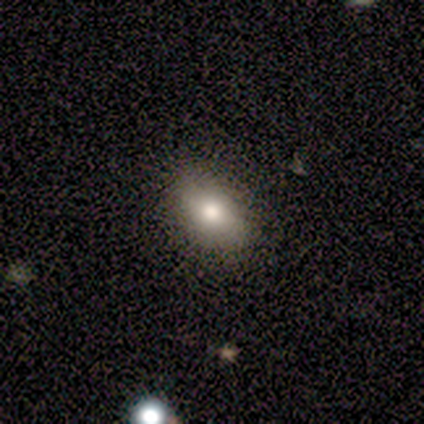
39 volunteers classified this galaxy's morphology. Smooth or featured?
  - smooth: 74% *
  - star or artifact: 15%
  - featured or disk: 10%
How rounded?
  - in between: 86% *
  - round: 14%
  - cigar-shaped: 0%
Merging?
  - none: 97% *
  - minor disturbance: 3%
  - major disturbance: 0%
  - merger: 0%